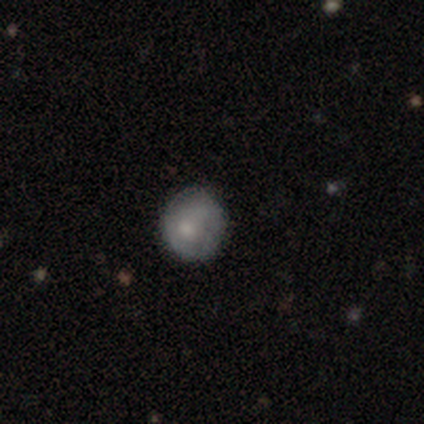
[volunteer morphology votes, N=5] Smooth or featured? smooth (40%, tied with featured or disk)
How rounded? round (100%)
Merging? none (75%)